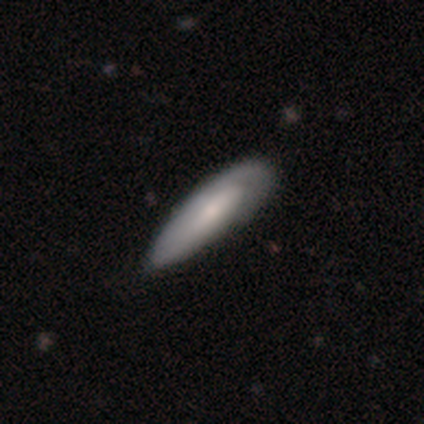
Morphology: type=smooth (59%); roundness=in between (64%); merging=minor disturbance (48%).